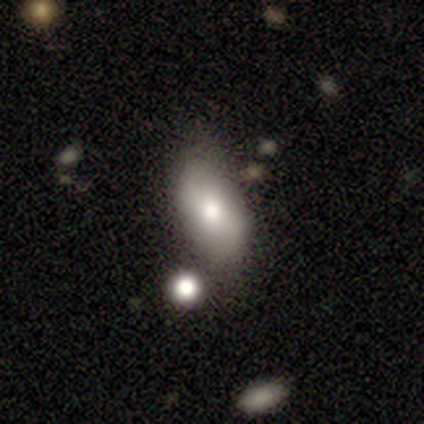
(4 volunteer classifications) smooth-or-featured: smooth: 100% | featured or disk: 0% | star or artifact: 0%
  how-rounded: in between: 100% | round: 0% | cigar-shaped: 0%
  merging: none: 75% | minor disturbance: 25% | major disturbance: 0% | merger: 0%